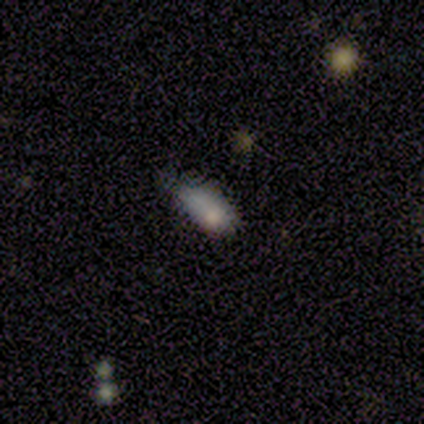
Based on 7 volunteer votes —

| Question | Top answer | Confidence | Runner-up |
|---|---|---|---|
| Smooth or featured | smooth | 57% | featured or disk (43%) |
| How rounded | in between | 100% | — |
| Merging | minor disturbance | 43% | none (29%) |